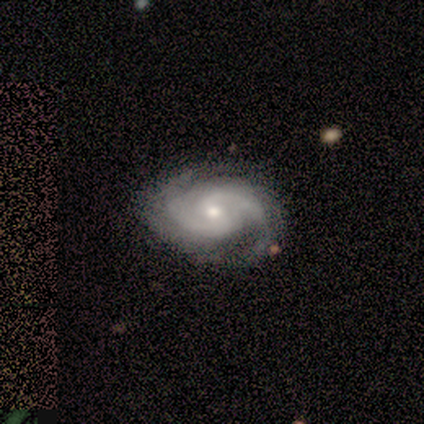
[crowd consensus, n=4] Smooth or featured?
  - featured or disk: 100% *
  - smooth: 0%
  - star or artifact: 0%
Edge-on disk?
  - no: 100% *
  - yes: 0%
Bar?
  - no: 75% *
  - weak: 25%
  - strong: 0%
Spiral arms?
  - yes: 100% *
  - no: 0%
Spiral winding?
  - medium: 75% *
  - tight: 25%
  - loose: 0%
Spiral arm count?
  - 2: 75% *
  - 3: 25%
  - 1: 0%
  - 4: 0%
  - more than 4: 0%
  - can't tell: 0%
Bulge size?
  - moderate: 50% * (tied)
  - small: 50% * (tied)
  - dominant: 0%
  - large: 0%
  - none: 0%
Merging?
  - none: 75% *
  - major disturbance: 25%
  - minor disturbance: 0%
  - merger: 0%